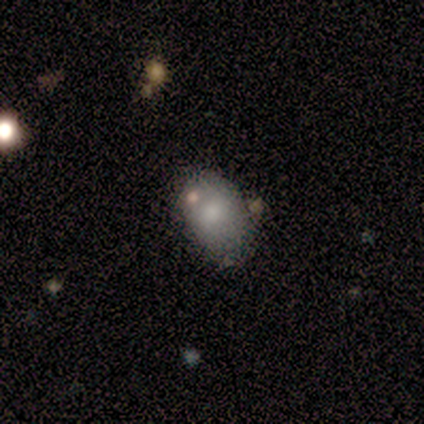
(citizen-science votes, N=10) Smooth or featured?
  - smooth: 90% *
  - featured or disk: 10%
  - star or artifact: 0%
How rounded?
  - in between: 89% *
  - round: 11%
  - cigar-shaped: 0%
Merging?
  - none: 50% * (tied)
  - minor disturbance: 50% * (tied)
  - major disturbance: 0%
  - merger: 0%